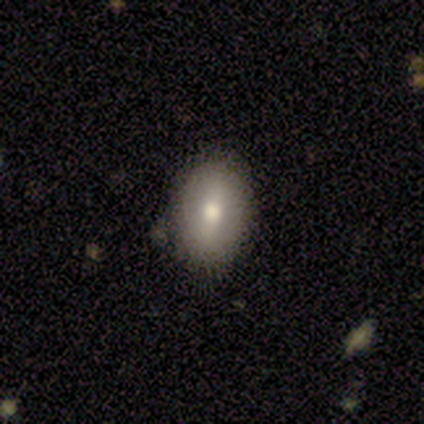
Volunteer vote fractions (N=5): Morphology: type=smooth (40%, tied with featured or disk); roundness=in between (100%); merging=none (75%).